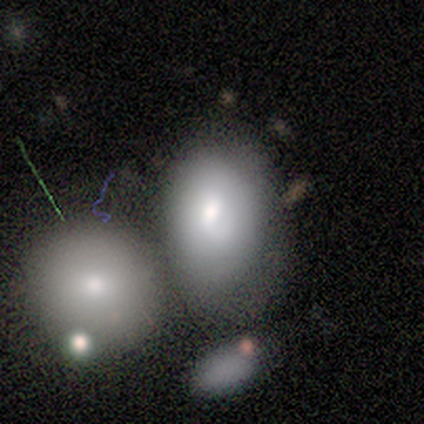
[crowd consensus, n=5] Smooth or featured?
  - smooth: 60% *
  - featured or disk: 20%
  - star or artifact: 20%
How rounded?
  - in between: 100% *
  - round: 0%
  - cigar-shaped: 0%
Merging?
  - merger: 50% *
  - none: 25%
  - major disturbance: 25%
  - minor disturbance: 0%